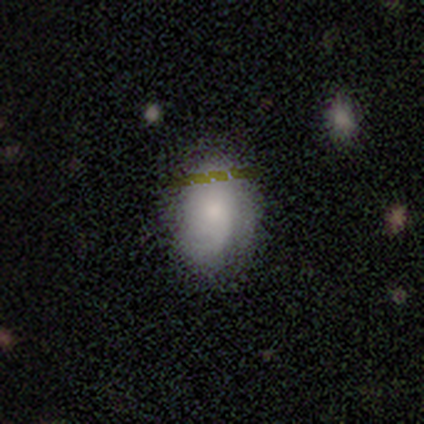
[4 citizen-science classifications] This is likely a smooth galaxy (75%). How rounded: clearly in between (100%). Merging: likely minor disturbance (67%).